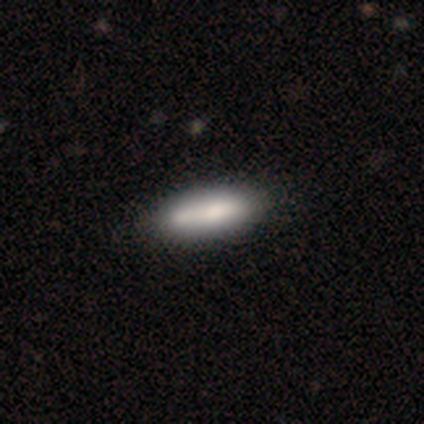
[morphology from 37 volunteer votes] A smooth galaxy with no disk features (78%) that is in between round and cigar-shaped (59%). Merging: none (37%).